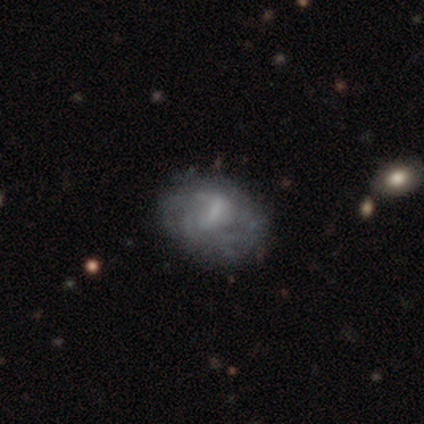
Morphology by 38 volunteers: Overall: featured or disk (61%; smooth 24%). Edge-on disk: no (100%). Bar: weak (57%; no 30%). Spiral arms: yes (70%; no 30%). Spiral arm count: can't tell (44%; 3 25%). Spiral winding: tight (38%, tied with medium). Bulge size: none (48%; small 30%). Merging: none (75%).